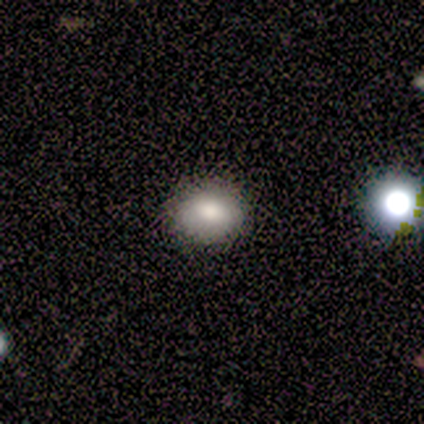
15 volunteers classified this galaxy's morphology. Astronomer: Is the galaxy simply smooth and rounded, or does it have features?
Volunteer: smooth — 87%.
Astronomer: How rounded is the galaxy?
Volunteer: in between — 54% (runner-up: round, 46%).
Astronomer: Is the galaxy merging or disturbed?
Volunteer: none — 92%.